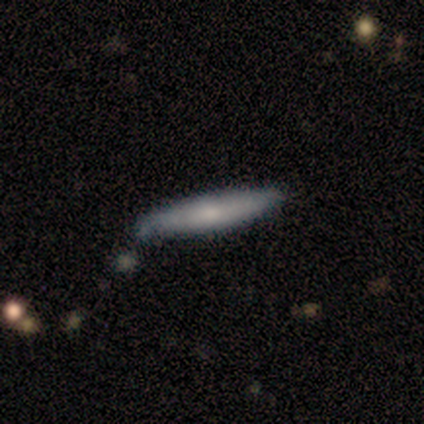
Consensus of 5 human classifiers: Q: Smooth or featured?
A: featured or disk (60%); runner-up: smooth (40%)
Q: Edge-on disk?
A: yes (100%)
Q: Edge-on bulge?
A: none (67%); runner-up: rounded (33%)
Q: Merging?
A: none (100%)